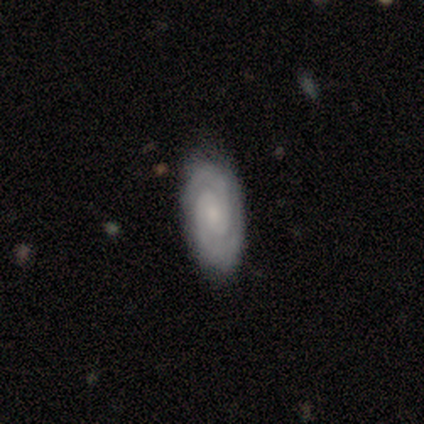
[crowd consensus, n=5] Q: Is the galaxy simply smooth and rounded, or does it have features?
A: featured or disk — 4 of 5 (80%).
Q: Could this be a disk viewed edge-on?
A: no — 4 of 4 (100%).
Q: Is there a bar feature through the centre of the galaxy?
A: no — 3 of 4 (75%).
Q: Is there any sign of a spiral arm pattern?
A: yes — 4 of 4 (100%).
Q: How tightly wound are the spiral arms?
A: tight — 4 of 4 (100%).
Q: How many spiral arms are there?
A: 2 — 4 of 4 (100%).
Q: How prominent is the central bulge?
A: small — 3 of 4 (75%).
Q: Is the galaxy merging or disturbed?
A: none — 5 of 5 (100%).